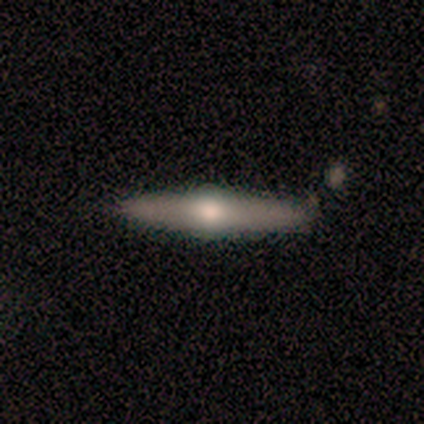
Overall: featured or disk (60%; smooth 20%). Edge-on disk: yes (100%). Edge-on bulge: rounded (100%). Merging: none (75%).